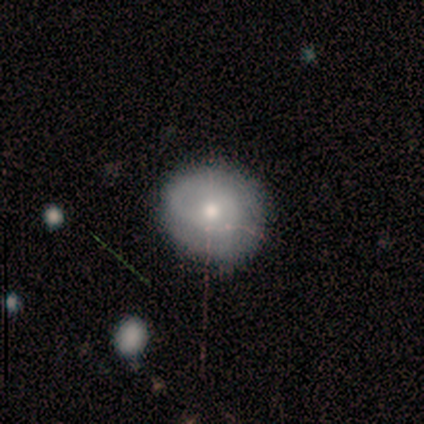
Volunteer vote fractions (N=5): smooth_or_featured: smooth (p=0.60) [alt: featured or disk p=0.40]
how_rounded: round (p=1.00)
merging: minor disturbance (p=0.60) [alt: none p=0.20]